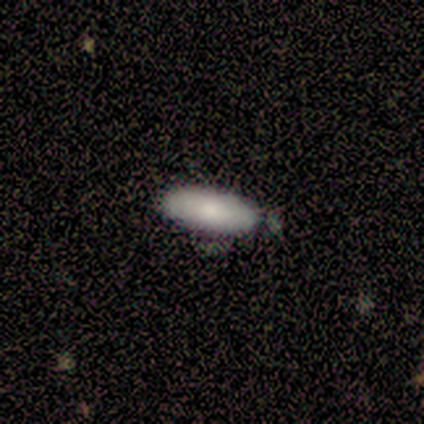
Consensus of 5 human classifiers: This is clearly a smooth galaxy (100%). How rounded: clearly in between (80%). Merging: clearly none (80%).